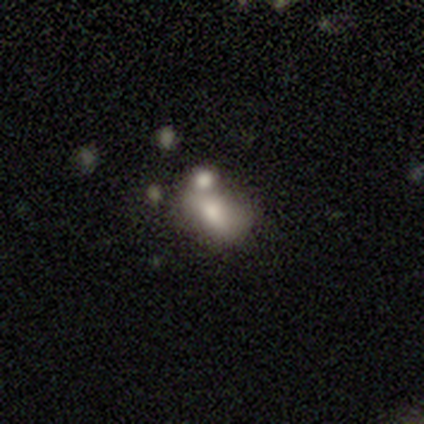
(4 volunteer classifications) Morphology: type=smooth (100%); roundness=in between (75%); merging=none (50%, tied with merger).